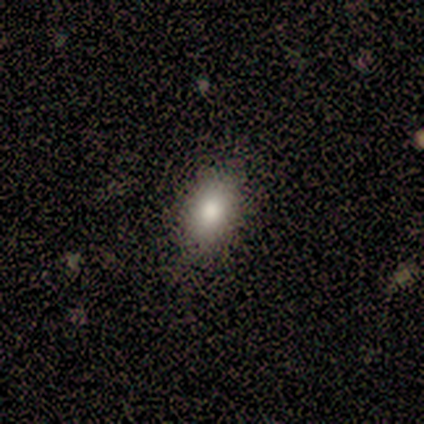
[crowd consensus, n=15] Smooth or featured: smooth — 80% (star or artifact — 20%)
How rounded: in between — 100%
Merging: none — 83% (minor disturbance — 17%)